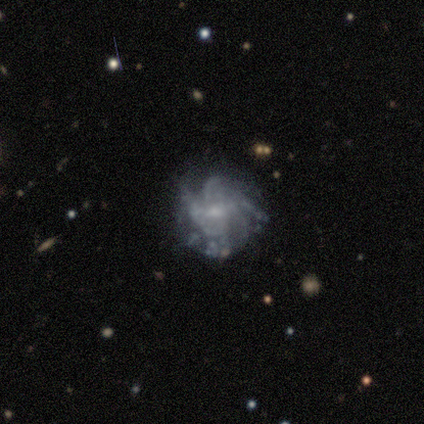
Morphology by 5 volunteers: This appears to be a featured or disk galaxy (80%) with a weak bar (50%, tied with no), more than 4 (50%) tight (75%) spiral arms (100%) and a small central bulge (75%). Merging: minor disturbance (60%).